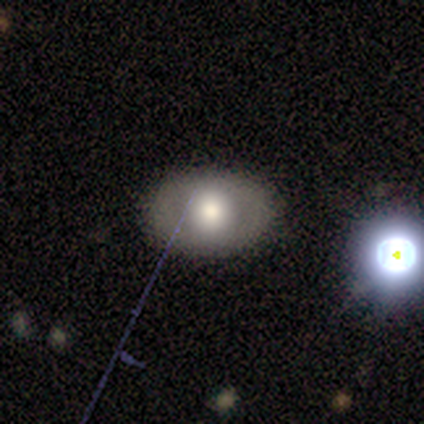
smooth 40% (tied), featured or disk 40% (tied), star or artifact 20%. Down the decision tree: how rounded — round (50%, tied with in between); merging — none (100%).